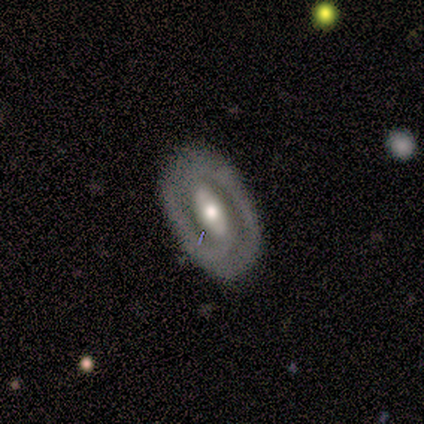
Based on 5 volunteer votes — Smooth or featured?
  - featured or disk: 100% *
  - smooth: 0%
  - star or artifact: 0%
Edge-on disk?
  - no: 80% *
  - yes: 20%
Bar?
  - strong: 50% *
  - weak: 25%
  - no: 25%
Spiral arms?
  - no: 75% *
  - yes: 25%
Bulge size?
  - moderate: 100% *
  - dominant: 0%
  - large: 0%
  - small: 0%
  - none: 0%
Merging?
  - none: 100% *
  - minor disturbance: 0%
  - major disturbance: 0%
  - merger: 0%